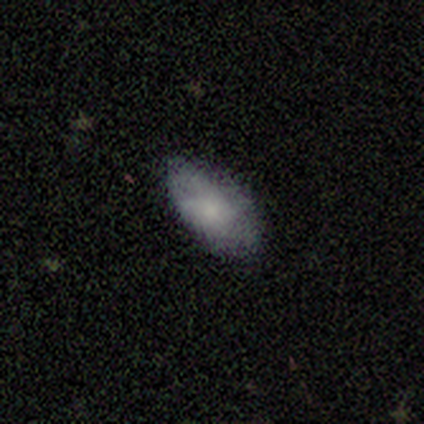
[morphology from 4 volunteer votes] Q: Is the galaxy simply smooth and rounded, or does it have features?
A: smooth — 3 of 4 (75%).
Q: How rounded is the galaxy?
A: in between — 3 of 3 (100%).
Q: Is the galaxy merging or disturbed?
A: none — 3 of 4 (75%).